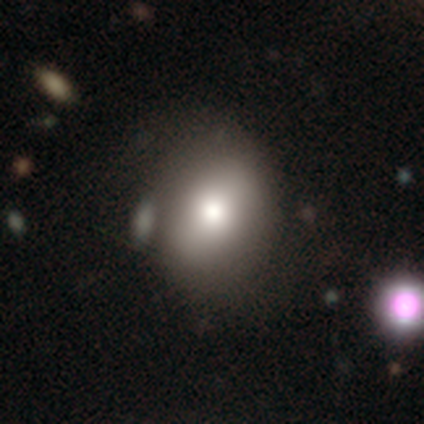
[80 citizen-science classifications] Overall: smooth (79%). How rounded: in between (54%; round 43%). Merging: none (29%; merger 14%).